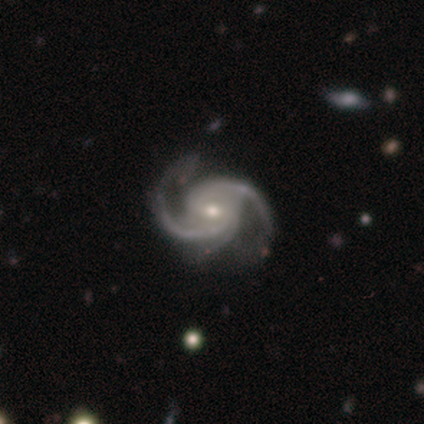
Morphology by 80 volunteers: A featured or disk galaxy (98%) with no bar (55%), 2 (51%) medium (75%) spiral arms (99%) and a moderate central bulge (56%).

Vote fractions:
- Smooth or featured? featured or disk: 98% / star or artifact: 2% / smooth: 0%
- Edge-on disk? no: 100% / yes: 0%
- Bar? no: 55% / weak: 33% / strong: 12%
- Spiral arms? yes: 99% / no: 1%
- Spiral winding? medium: 75% / tight: 14% / loose: 10%
- Spiral arm count? 2: 51% / 3: 44% / 4: 4% / can't tell: 1% / 1: 0% / more than 4: 0%
- Bulge size? moderate: 56% / small: 38% / large: 4% / none: 1% / dominant: 0%
- Merging? none: 29% / minor disturbance: 14% / major disturbance: 6% / merger: 1%